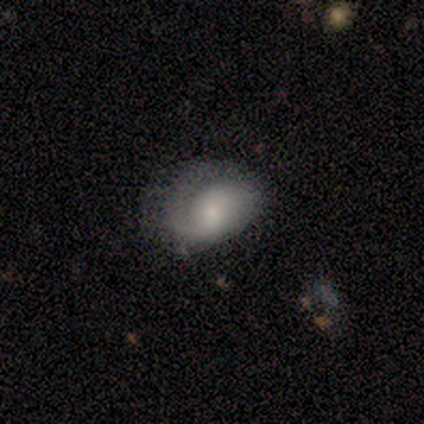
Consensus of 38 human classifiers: Overall: featured or disk (61%; smooth 34%). Edge-on disk: no (100%). Bar: no (61%; weak 39%). Spiral arms: yes (83%). Spiral arm count: 1 (47%; 2 26%). Spiral winding: tight (42%; medium 37%). Bulge size: small (52%; moderate 35%). Merging: none (47%; major disturbance 36%).